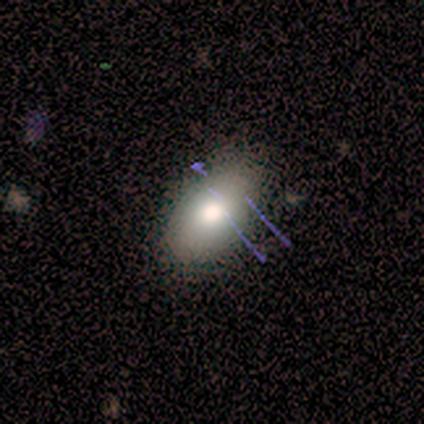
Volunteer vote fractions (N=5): Volunteers were most divided on "merging": none: 75%, minor disturbance: 25%, major disturbance: 0%, merger: 0%. More confident: how rounded — in between (100%); smooth or featured — smooth (80%).